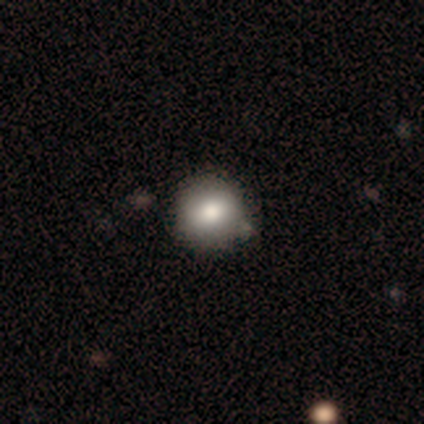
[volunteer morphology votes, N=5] Smooth or featured? smooth (80%)
How rounded? round (100%)
Merging? none (100%)